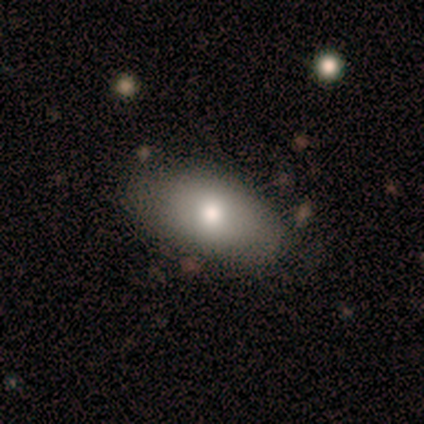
This appears to be a smooth galaxy with no disk features (60%) that is in between round and cigar-shaped (100%). Merging: none (75%).